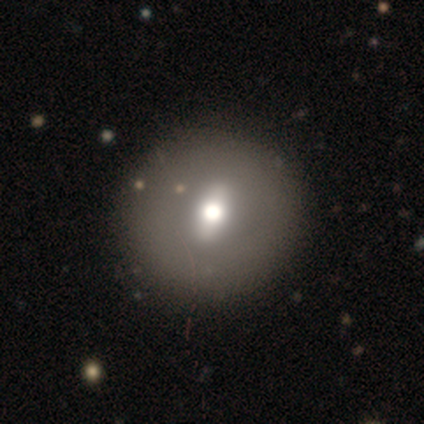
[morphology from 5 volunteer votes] Smooth or featured: featured or disk — 100%
Edge-on disk: no — 100%
Bar: strong — 40% (tied with no — 40%)
Spiral arms: no — 100%
Bulge size: moderate — 60% (large — 20%)
Merging: none — 60% (minor disturbance — 20%)